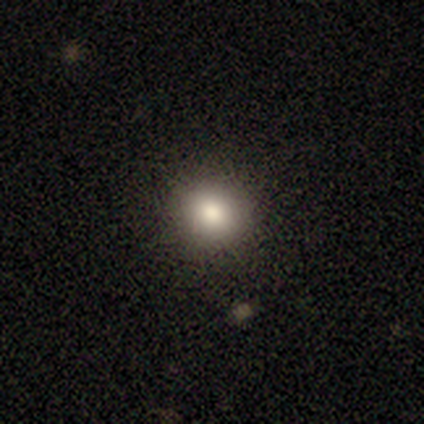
smooth-or-featured: smooth: 100% | featured or disk: 0% | star or artifact: 0%
  how-rounded: round: 100% | in between: 0% | cigar-shaped: 0%
  merging: none: 100% | minor disturbance: 0% | major disturbance: 0% | merger: 0%